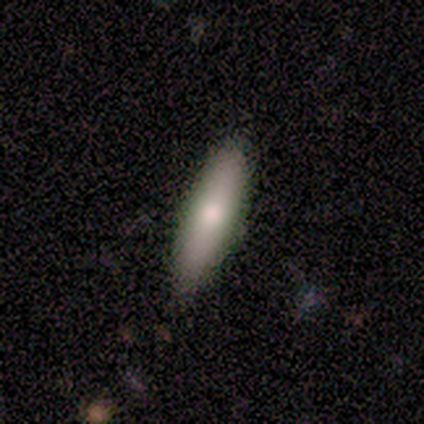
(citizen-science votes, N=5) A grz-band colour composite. It shows a smooth galaxy with no disk features (60%) that is cigar-shaped (67%). Merging: none (100%).